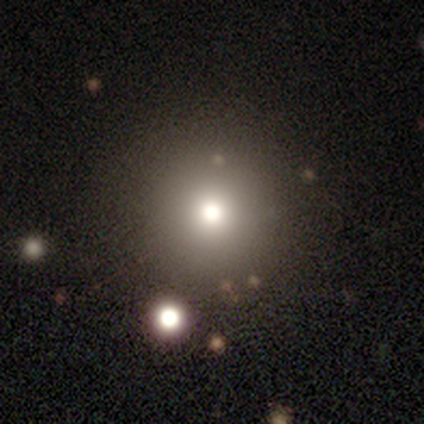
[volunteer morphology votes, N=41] smooth-or-featured: smooth: 68% | star or artifact: 17% | featured or disk: 15%
  how-rounded: round: 96% | in between: 4% | cigar-shaped: 0%
  merging: none: 71% | major disturbance: 3% | minor disturbance: 0% | merger: 0%